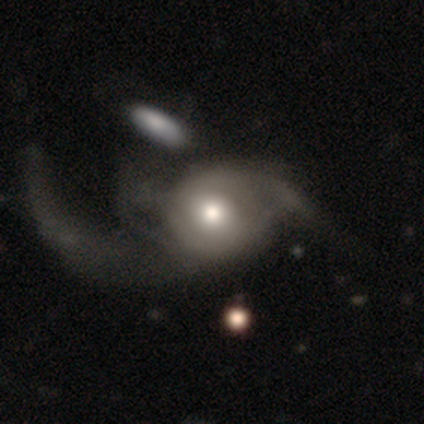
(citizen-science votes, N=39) Volunteers were most divided on "merging": major disturbance: 42%, merger: 13%, minor disturbance: 8%, none: 0%. More confident: edge-on disk — no (90%); spiral arms — yes (81%); smooth or featured — featured or disk (77%); bar — no (67%); bulge size — moderate (67%); spiral winding — loose (59%); spiral arm count — 2 (55%).